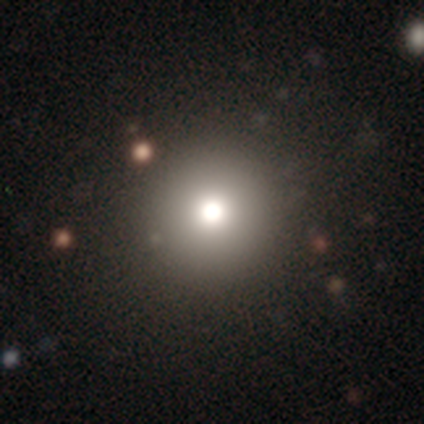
smooth-or-featured: smooth: 72% | star or artifact: 16% | featured or disk: 12%
  how-rounded: round: 97% | in between: 3% | cigar-shaped: 0%
  merging: none: 91% | minor disturbance: 5% | merger: 3% | major disturbance: 1%